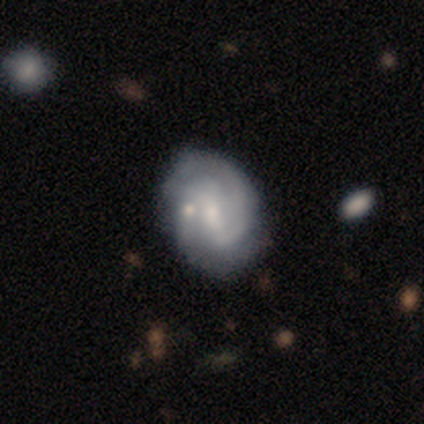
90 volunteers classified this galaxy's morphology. Smooth or featured?
  - featured or disk: 83% *
  - smooth: 14%
  - star or artifact: 2%
Edge-on disk?
  - no: 97% *
  - yes: 3%
Bar?
  - weak: 51% *
  - strong: 30%
  - no: 19%
Spiral arms?
  - yes: 90% *
  - no: 10%
Spiral winding?
  - medium: 50% *
  - tight: 39%
  - loose: 11%
Spiral arm count?
  - 2: 61% *
  - can't tell: 23%
  - 3: 14%
  - 1: 3%
  - 4: 0%
  - more than 4: 0%
Bulge size?
  - small: 64% *
  - moderate: 23%
  - none: 7%
  - dominant: 3%
  - large: 3%
Merging?
  - none: 61% *
  - minor disturbance: 22%
  - merger: 12%
  - major disturbance: 5%